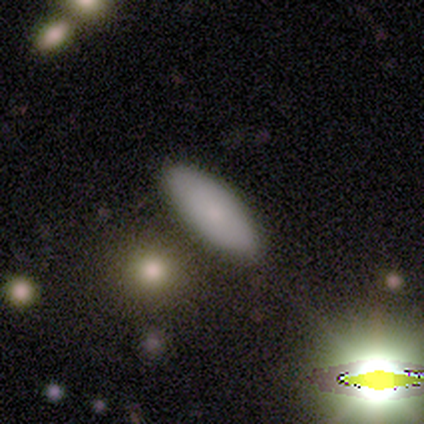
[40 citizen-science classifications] Smooth or featured? 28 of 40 (70%) said smooth. How rounded? 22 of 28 (79%) said in between. Merging? 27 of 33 (82%) said none.